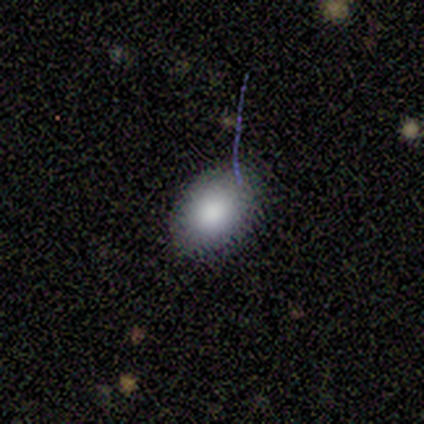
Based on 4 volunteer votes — Volunteers were most divided on "smooth or featured" (2-way tie): smooth: 50%, featured or disk: 50%, star or artifact: 0%. More confident: how rounded — in between (100%); merging — none (100%).